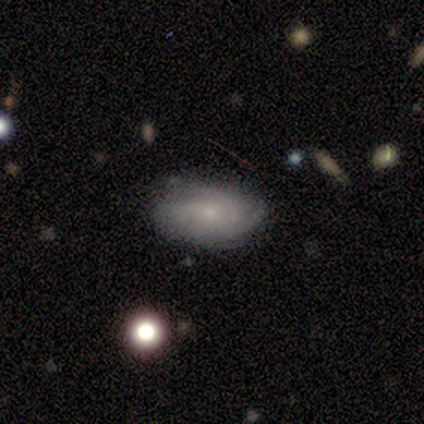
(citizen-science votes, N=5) featured or disk 80%, smooth 20%, star or artifact 0%. Down the decision tree: edge-on disk — no (100%); bar — weak (75%); spiral arms — yes (100%); spiral arm count — 3 (100%); spiral winding — tight (75%); bulge size — small (75%); merging — none (100%).